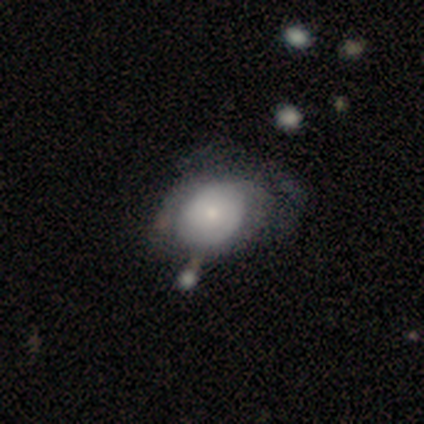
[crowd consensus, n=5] Morphology: type=featured or disk (80%); edge-on=no (100%); bar=no (75%); spiral arms=yes (75%); winding=tight (67%); arm count=can't tell (67%); bulge=moderate (50%, tied with small); merging=none (40%, tied with major disturbance).